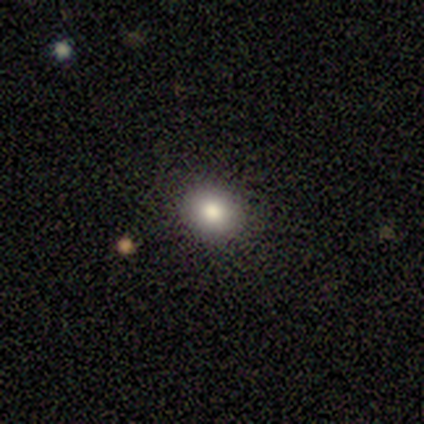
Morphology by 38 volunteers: smooth 82%, star or artifact 13%, featured or disk 5%. Down the decision tree: how rounded — round (55%); merging — none (97%).